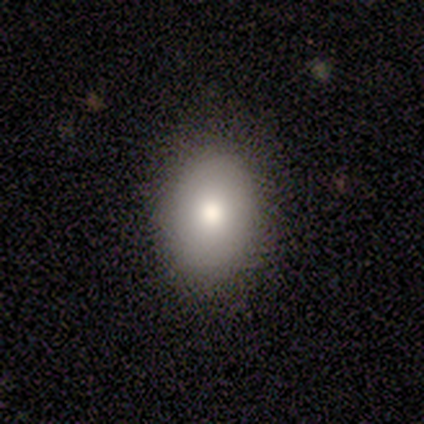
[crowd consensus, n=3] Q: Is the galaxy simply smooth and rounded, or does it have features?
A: smooth — 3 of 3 (100%).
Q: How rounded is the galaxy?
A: in between — 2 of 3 (67%).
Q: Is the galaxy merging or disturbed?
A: none — 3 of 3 (100%).